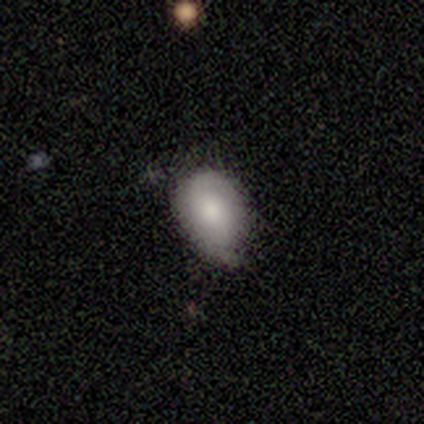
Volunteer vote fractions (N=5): Smooth or featured? 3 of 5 (60%) said smooth. How rounded? 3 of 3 (100%) said in between. Merging? 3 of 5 (60%) said minor disturbance.